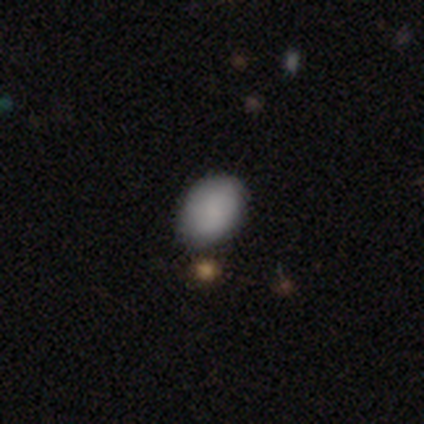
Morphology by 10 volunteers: Smooth or featured? 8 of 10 (80%) said smooth. How rounded? 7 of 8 (88%) said in between. Merging? 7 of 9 (78%) said none.